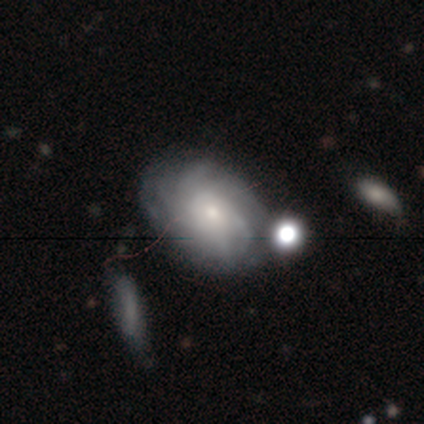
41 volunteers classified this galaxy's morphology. type=featured or disk (73%); edge-on=no (100%); bar=no (93%); spiral arms=yes (97%); winding=tight (48%); arm count=more than 4 (41%); bulge=small (67%); merging=none (61%).